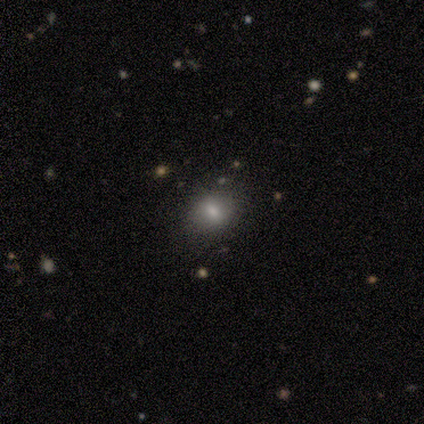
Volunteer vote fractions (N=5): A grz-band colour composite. It shows a featured or disk galaxy (60%) with no bar (67%), no spiral arms (100%) and a small central bulge (67%). Merging: none (100%).